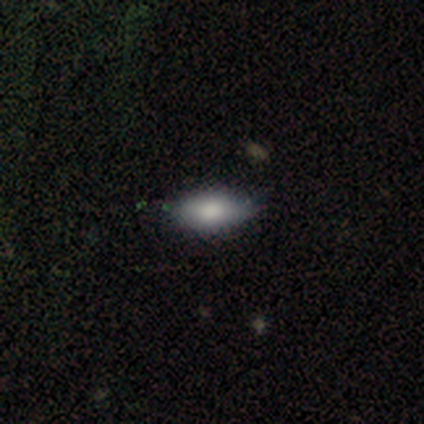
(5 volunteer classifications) Morphology: type=smooth (60%); roundness=in between (100%); merging=none (100%).